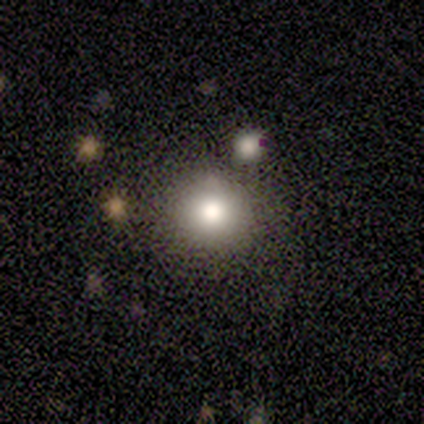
Morphology: type=smooth (40%, tied with featured or disk); roundness=round (100%); merging=none (50%, tied with minor disturbance).